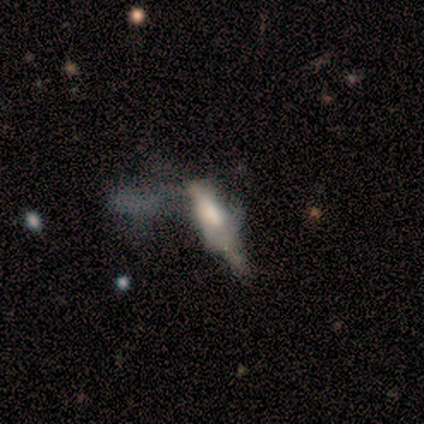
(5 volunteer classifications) smooth_or_featured: featured or disk (p=0.60) [alt: smooth p=0.40]
disk_edge_on: yes (p=0.67) [alt: no p=0.33]
edge_on_bulge: boxy (p=0.50) [tied with: rounded p=0.50]
merging: none (p=0.40) [alt: minor disturbance p=0.20]